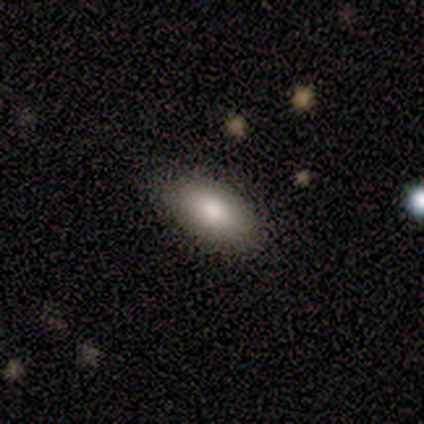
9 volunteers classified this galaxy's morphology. Smooth or featured? 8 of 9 (89%) said smooth. How rounded? 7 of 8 (88%) said in between. Merging? 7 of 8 (88%) said none.